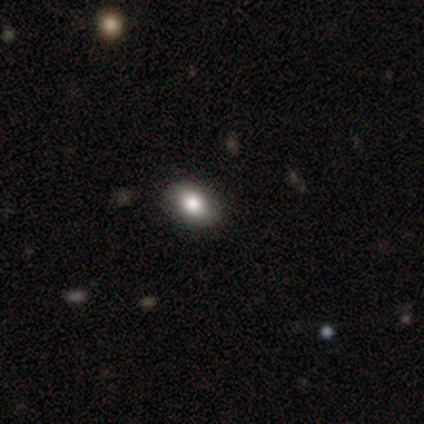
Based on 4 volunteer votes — smooth_or_featured: smooth (p=1.00)
how_rounded: in between (p=0.75) [alt: round p=0.25]
merging: none (p=1.00)